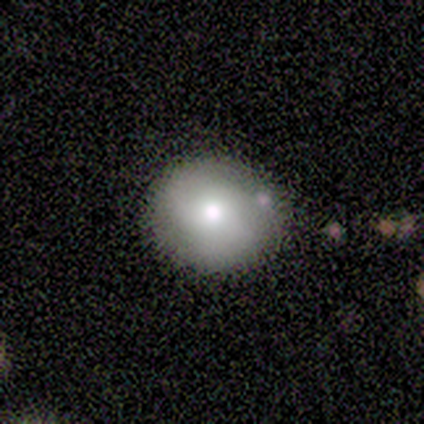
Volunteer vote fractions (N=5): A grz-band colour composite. It shows a smooth galaxy with no disk features (100%) that is round (80%). Merging: none (80%).